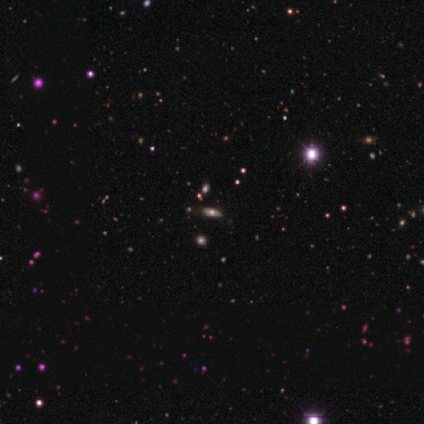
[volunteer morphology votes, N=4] smooth_or_featured: star or artifact (p=0.50) [alt: smooth p=0.25]